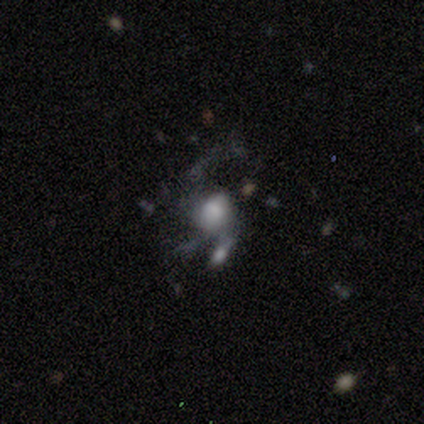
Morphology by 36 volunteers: smooth-or-featured: featured or disk: 61% | smooth: 25% | star or artifact: 14%
  disk-edge-on: no: 100% | yes: 0%
    bar: no: 64% | weak: 36% | strong: 0%
    has-spiral-arms: yes: 55% | no: 45%
      spiral-winding: loose: 83% | medium: 17% | tight: 0%
      spiral-arm-count: 2: 58% | 3: 25% | can't tell: 17% | 1: 0% | 4: 0% | more than 4: 0%
    bulge-size: moderate: 41% | small: 23% | large: 14% | none: 14% | dominant: 9%
  merging: major disturbance: 39% | merger: 32% | none: 16% | minor disturbance: 13%